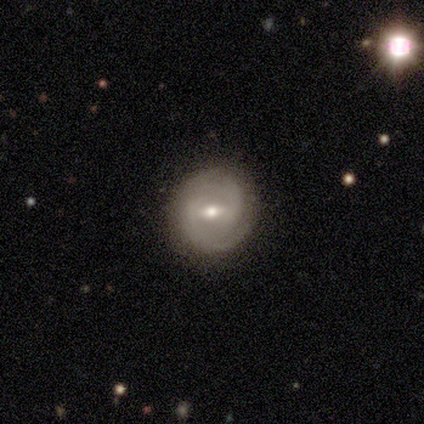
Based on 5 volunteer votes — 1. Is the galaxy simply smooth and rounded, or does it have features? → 100% featured or disk, 0% smooth, 0% star or artifact.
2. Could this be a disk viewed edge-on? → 100% no, 0% yes.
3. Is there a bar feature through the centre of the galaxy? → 60% weak, 40% strong, 0% no.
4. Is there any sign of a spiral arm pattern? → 80% yes, 20% no.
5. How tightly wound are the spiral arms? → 75% tight, 25% loose, 0% medium.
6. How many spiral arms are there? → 100% 2, 0% 1, 0% 3, 0% 4, 0% more than 4, 0% can't tell.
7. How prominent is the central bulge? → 60% moderate, 20% small, 20% none, 0% dominant, 0% large.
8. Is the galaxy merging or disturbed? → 100% none, 0% minor disturbance, 0% major disturbance, 0% merger.